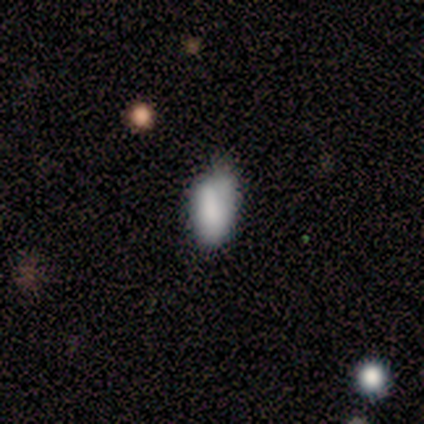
Overall: smooth (83%). How rounded: in between (80%). Merging: none (73%).